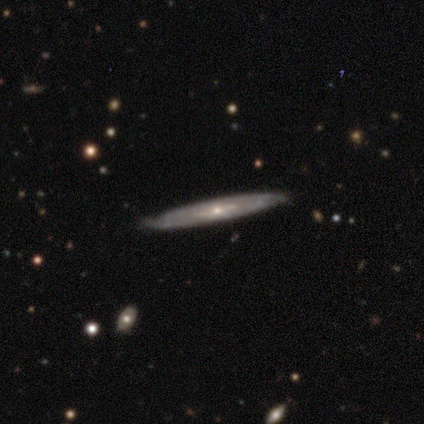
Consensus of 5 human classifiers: Smooth or featured: featured or disk — 60% (smooth — 40%)
Edge-on disk: yes — 67% (no — 33%)
Edge-on bulge: none — 50% (tied with rounded — 50%)
Merging: none — 100%